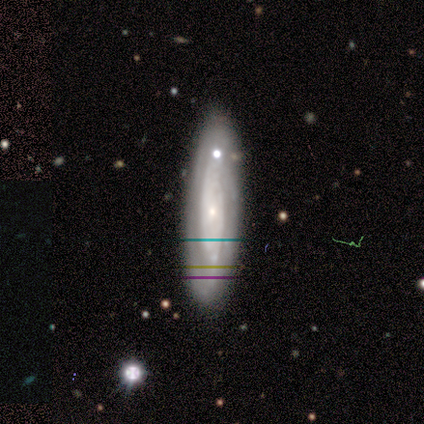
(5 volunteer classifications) Smooth or featured? 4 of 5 (80%) said featured or disk. Edge-on disk? 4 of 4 (100%) said no. Bar? 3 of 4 (75%) said no. Spiral arms? 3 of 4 (75%) said no. Bulge size? 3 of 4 (75%) said small. Merging? 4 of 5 (80%) said none.